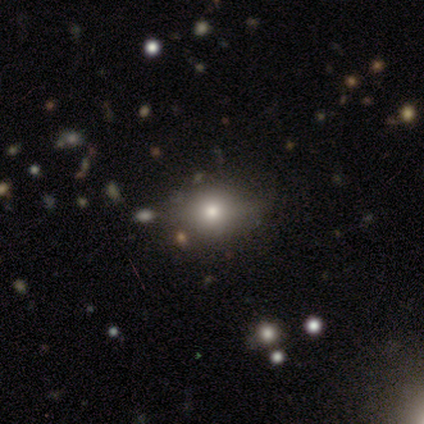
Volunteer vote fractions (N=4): Morphology: type=smooth (75%); roundness=in between (67%); merging=none (75%).